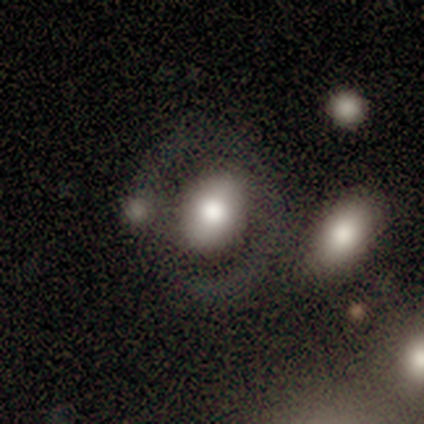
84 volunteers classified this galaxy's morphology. Volunteers were most divided on "smooth or featured": smooth: 55%, featured or disk: 35%, star or artifact: 11%. More confident: how rounded — in between (65%); merging — none (55%).